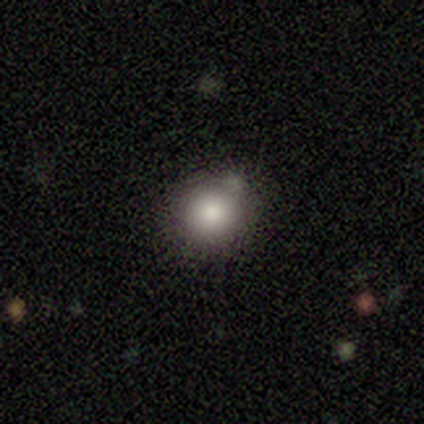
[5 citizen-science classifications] Q: Smooth or featured?
A: smooth (100%)
Q: How rounded?
A: round (80%); runner-up: in between (20%)
Q: Merging?
A: none (60%); runner-up: minor disturbance (40%)